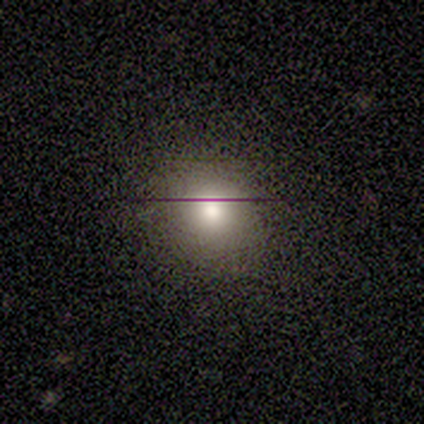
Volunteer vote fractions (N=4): Smooth or featured? smooth (50%, tied with star or artifact)
How rounded? round (100%)
Merging? none (50%, tied with minor disturbance)